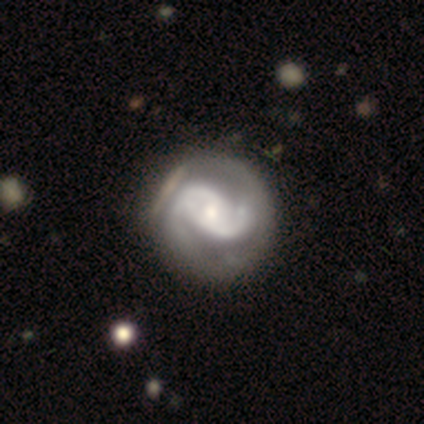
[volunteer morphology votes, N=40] Volunteers were most divided on "bar": no: 42%, weak: 39%, strong: 19%. Remaining: edge-on disk — no (97%); spiral arms — yes (97%); smooth or featured — featured or disk (92%); spiral arm count — 2 (91%); bulge size — small (50%); merging — none (47%); spiral winding — medium (43%).